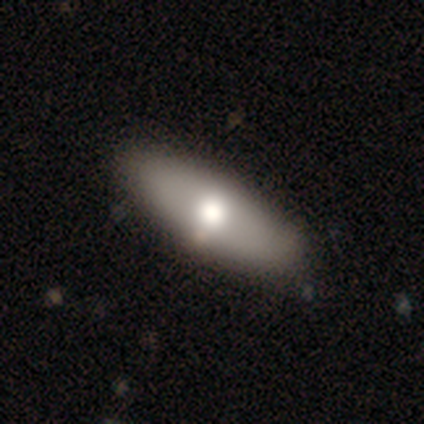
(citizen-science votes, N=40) Morphology: type=smooth (70%); roundness=in between (79%); merging=none (62%).